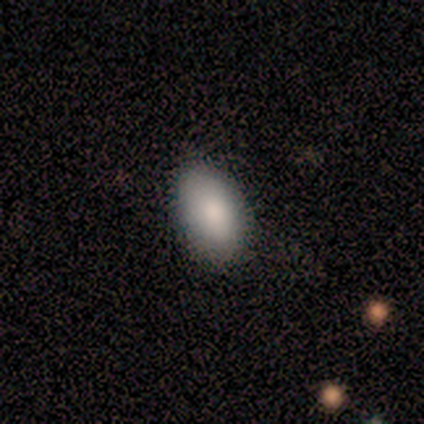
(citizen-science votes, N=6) A smooth galaxy with no disk features (100%) that is in between round and cigar-shaped (100%).

Vote fractions:
- Smooth or featured? smooth: 100% / featured or disk: 0% / star or artifact: 0%
- How rounded? in between: 100% / round: 0% / cigar-shaped: 0%
- Merging? none: 67% / minor disturbance: 17% / major disturbance: 17% / merger: 0%